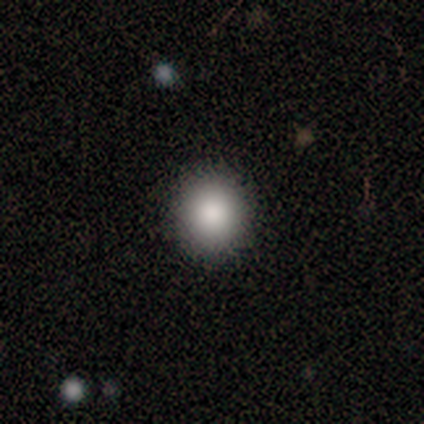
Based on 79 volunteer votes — Morphology: type=smooth (86%); roundness=round (91%); merging=none (56%).